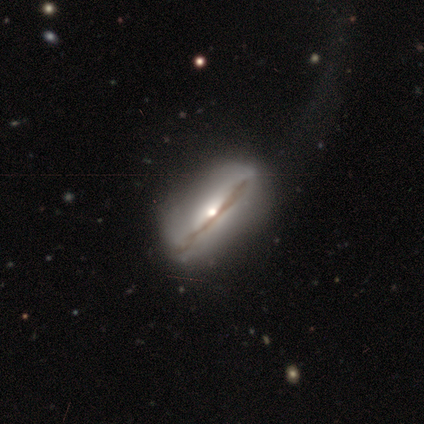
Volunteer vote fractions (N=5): smooth-or-featured: featured or disk: 80% | smooth: 20% | star or artifact: 0%
  disk-edge-on: yes: 100% | no: 0%
    edge-on-bulge: rounded: 75% | boxy: 25% | none: 0%
  merging: none: 80% | major disturbance: 20% | minor disturbance: 0% | merger: 0%